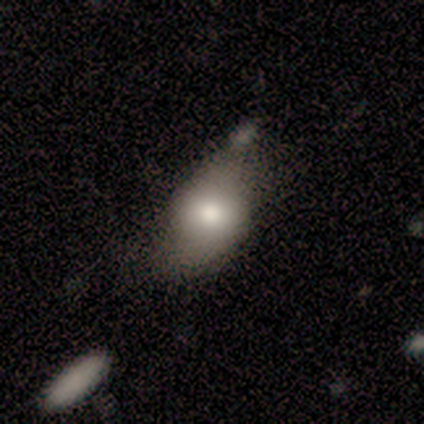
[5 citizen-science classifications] A smooth galaxy with no disk features (80%) that is in between round and cigar-shaped (100%).

Vote fractions:
- Smooth or featured? smooth: 80% / star or artifact: 20% / featured or disk: 0%
- How rounded? in between: 100% / round: 0% / cigar-shaped: 0%
- Merging? none: 50% (tied) / minor disturbance: 50% (tied) / major disturbance: 0% / merger: 0%